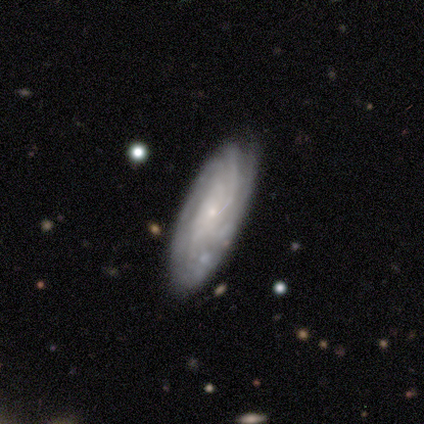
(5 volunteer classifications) Smooth or featured? featured or disk (80%)
Edge-on disk? no (75%)
Bar? no (100%)
Spiral arms? yes (67%)
Spiral winding? tight (50%, tied with medium)
Spiral arm count? more than 4 (50%, tied with can't tell)
Bulge size? small (100%)
Merging? none (60%)